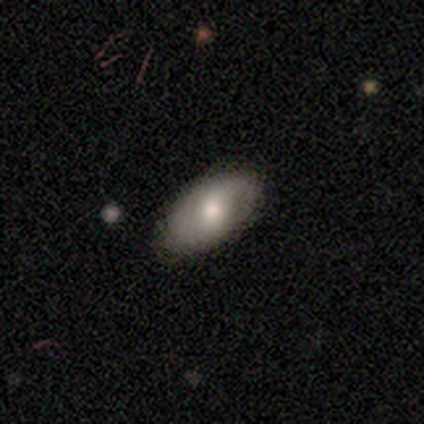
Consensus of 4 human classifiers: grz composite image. It shows a smooth galaxy with no disk features (100%) that is in between round and cigar-shaped (100%). Merging: none (75%).